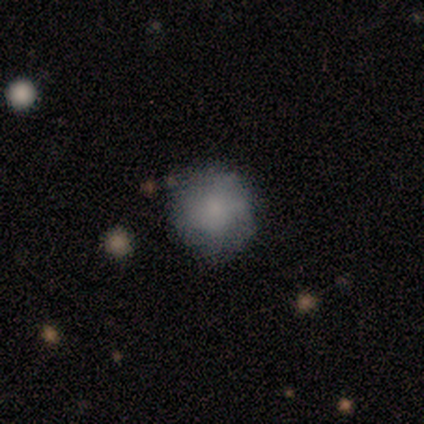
Smooth or featured?
  - smooth: 60% *
  - featured or disk: 40%
  - star or artifact: 0%
How rounded?
  - round: 100% *
  - in between: 0%
  - cigar-shaped: 0%
Merging?
  - none: 100% *
  - minor disturbance: 0%
  - major disturbance: 0%
  - merger: 0%